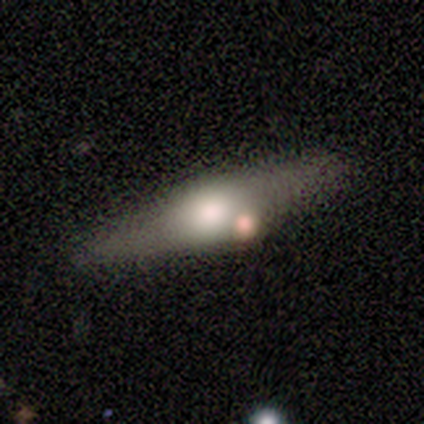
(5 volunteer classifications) A featured or disk galaxy (60%) viewed edge-on (67%) with a boxy central bulge (50%, tied with rounded).

Vote fractions:
- Smooth or featured? featured or disk: 60% / smooth: 20% / star or artifact: 20%
- Edge-on disk? yes: 67% / no: 33%
- Edge-on bulge? boxy: 50% (tied) / rounded: 50% (tied) / none: 0%
- Merging? none: 75% / minor disturbance: 25% / major disturbance: 0% / merger: 0%